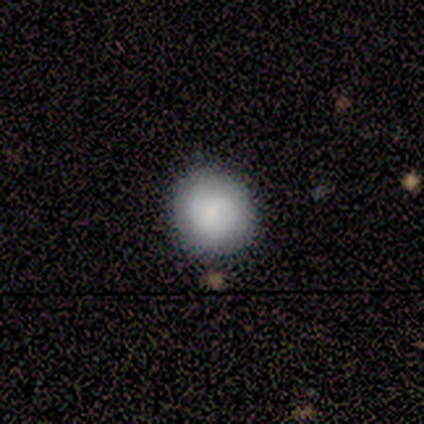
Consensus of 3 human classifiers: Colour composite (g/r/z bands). It shows a smooth galaxy with no disk features (100%) that is round (100%). Merging: none (100%).